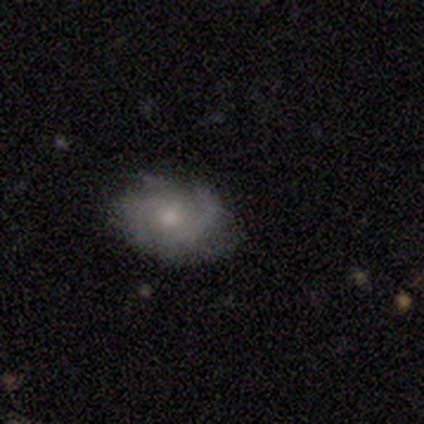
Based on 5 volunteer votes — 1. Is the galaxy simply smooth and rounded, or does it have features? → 100% featured or disk, 0% smooth, 0% star or artifact.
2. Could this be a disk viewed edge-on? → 100% no, 0% yes.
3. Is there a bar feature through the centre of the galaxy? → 80% no, 20% weak, 0% strong.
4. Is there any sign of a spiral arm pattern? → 100% yes, 0% no.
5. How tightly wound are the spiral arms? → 60% medium, 20% tight, 20% loose.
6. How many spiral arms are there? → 40% 4 (tied), 40% can't tell (tied), 20% 3, 0% 1, 0% 2, 0% more than 4.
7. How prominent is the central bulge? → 60% small, 20% dominant, 20% moderate, 0% large, 0% none.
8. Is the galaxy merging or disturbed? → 100% none, 0% minor disturbance, 0% major disturbance, 0% merger.